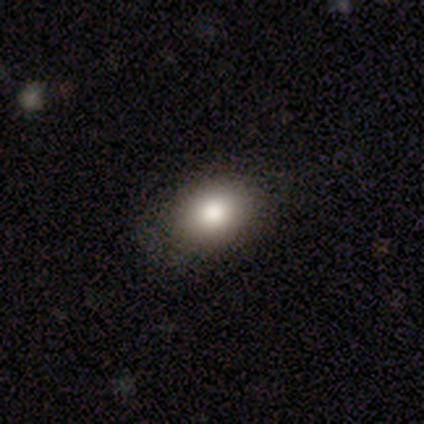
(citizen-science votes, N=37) Smooth or featured: smooth — 86% (featured or disk — 11%)
How rounded: in between — 69% (round — 31%)
Merging: none — 69% (minor disturbance — 6%)